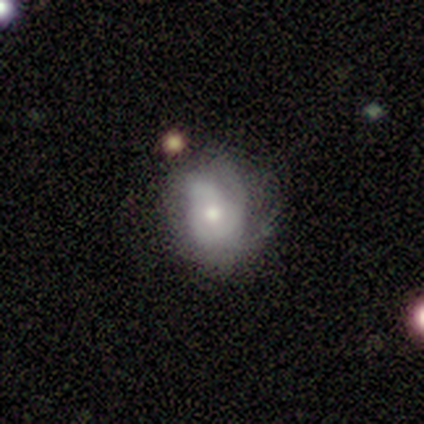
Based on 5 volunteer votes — This appears to be a featured or disk galaxy (100%) with no bar (80%), medium (67%) spiral arms (60%) and a moderate central bulge (60%). Merging: major disturbance (60%).